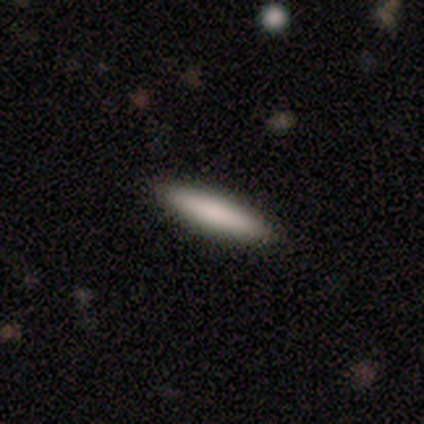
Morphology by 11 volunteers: Smooth or featured?
  - smooth: 73% *
  - featured or disk: 27%
  - star or artifact: 0%
How rounded?
  - cigar-shaped: 62% *
  - in between: 38%
  - round: 0%
Merging?
  - none: 100% *
  - minor disturbance: 0%
  - major disturbance: 0%
  - merger: 0%